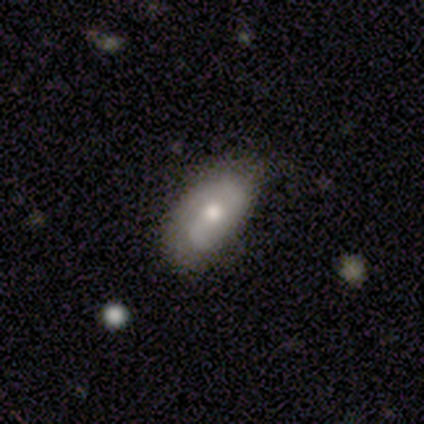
Smooth or featured: smooth — 61% (featured or disk — 37%)
How rounded: in between — 91% (round — 4%)
Merging: none — 68% (minor disturbance — 24%)